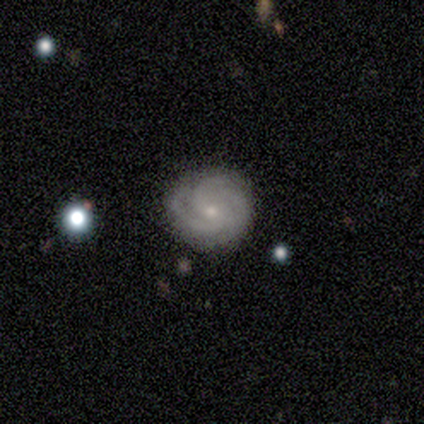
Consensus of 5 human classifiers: featured or disk 100%, smooth 0%, star or artifact 0%. Down the decision tree: edge-on disk — no (100%); bar — no (60%); spiral arms — yes (100%); spiral arm count — 2 (40%, tied with 3); spiral winding — tight (80%); bulge size — small (100%); merging — none (100%).